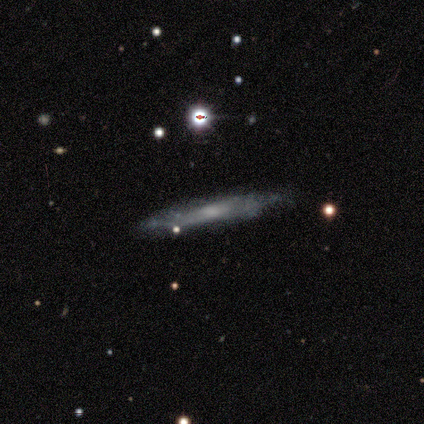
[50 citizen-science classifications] Smooth or featured? featured or disk (74%)
Edge-on disk? yes (68%)
Edge-on bulge? none (48%)
Merging? none (73%)